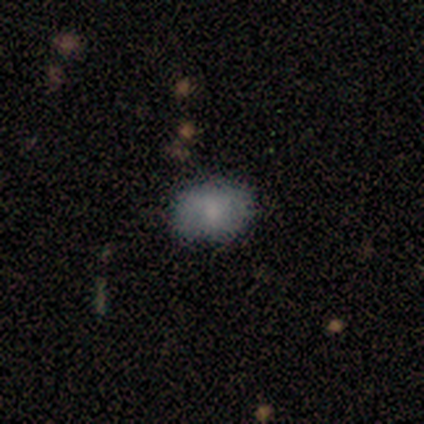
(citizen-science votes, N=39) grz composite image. It shows a smooth galaxy with no disk features (74%) that is in between round and cigar-shaped (83%). Merging: none (82%).